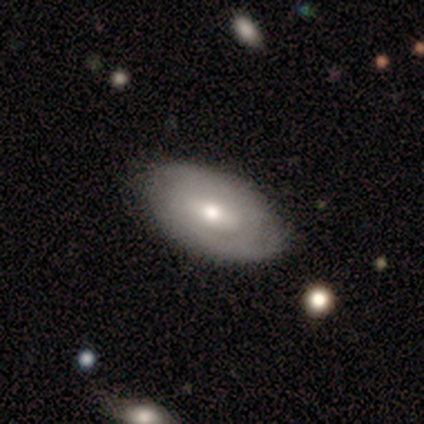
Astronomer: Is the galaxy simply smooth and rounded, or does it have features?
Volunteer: featured or disk — 100%.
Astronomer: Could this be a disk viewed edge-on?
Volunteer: no — 100%.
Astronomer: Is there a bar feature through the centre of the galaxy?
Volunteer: weak — 60% (runner-up: no, 40%).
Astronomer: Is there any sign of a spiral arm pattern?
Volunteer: yes — 80%.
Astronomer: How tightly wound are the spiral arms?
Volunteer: tight — 100%.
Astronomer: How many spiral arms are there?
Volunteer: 2 — 50%.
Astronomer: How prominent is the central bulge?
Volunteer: moderate — 40% (runner-up: dominant, 20%).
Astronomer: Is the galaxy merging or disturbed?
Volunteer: minor disturbance — 60% (runner-up: none, 40%).